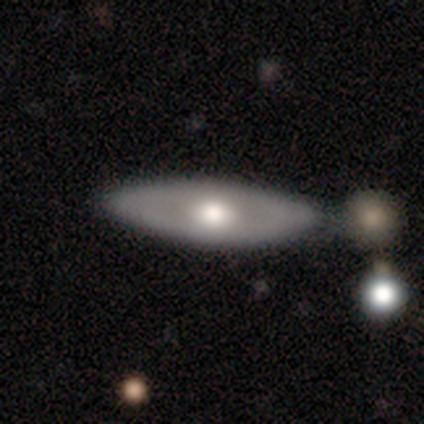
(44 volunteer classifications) Smooth or featured? 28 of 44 (64%) said featured or disk. Edge-on disk? 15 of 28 (54%) said no. Bar? 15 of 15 (100%) said no. Spiral arms? 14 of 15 (93%) said no. Bulge size? 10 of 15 (67%) said moderate. Merging? 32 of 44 (73%) said none.